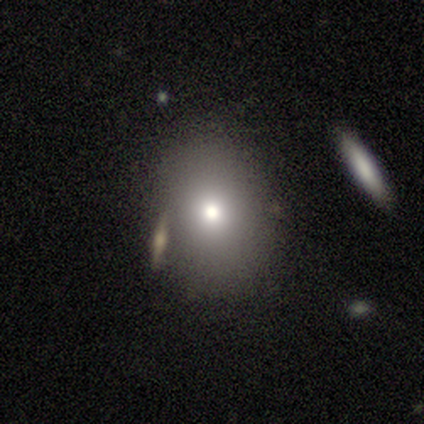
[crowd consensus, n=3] smooth-or-featured: smooth: 100% | featured or disk: 0% | star or artifact: 0%
  how-rounded: in between: 67% | round: 33% | cigar-shaped: 0%
  merging: none: 33% (tied) | minor disturbance: 33% (tied) | merger: 33% (tied) | major disturbance: 0%